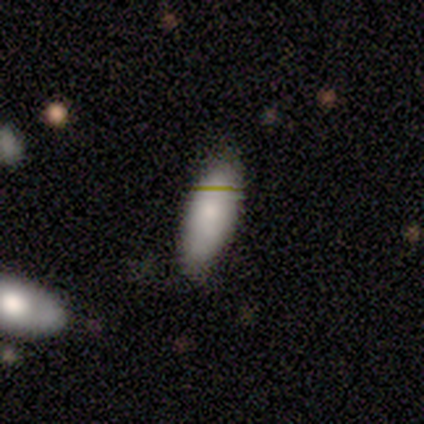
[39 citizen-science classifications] A smooth galaxy with no disk features (82%) that is in between round and cigar-shaped (81%).

Vote fractions:
- Smooth or featured? smooth: 82% / star or artifact: 10% / featured or disk: 8%
- How rounded? in between: 81% / cigar-shaped: 19% / round: 0%
- Merging? none: 77% / minor disturbance: 20% / major disturbance: 3% / merger: 0%